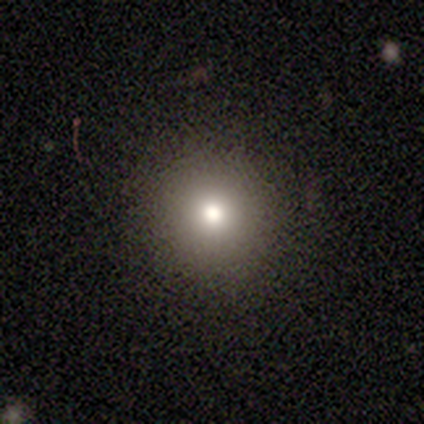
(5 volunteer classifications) Q: Smooth or featured?
A: smooth (60%); runner-up: star or artifact (40%)
Q: How rounded?
A: round (100%)
Q: Merging?
A: none (100%)